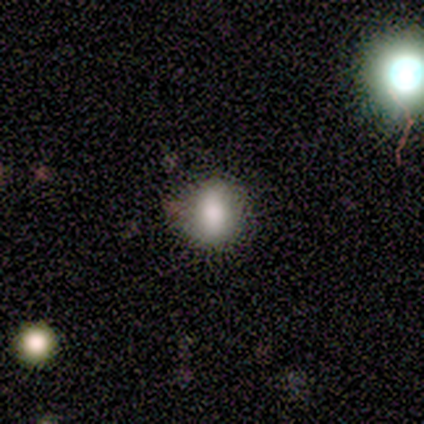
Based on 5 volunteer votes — A smooth galaxy with no disk features (100%) that is in between round and cigar-shaped (60%). Merging: none (60%).